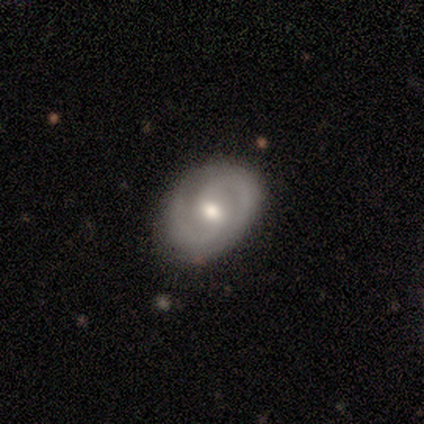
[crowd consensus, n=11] Smooth or featured? 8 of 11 (73%) said featured or disk. Edge-on disk? 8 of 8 (100%) said no. Bar? 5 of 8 (62%) said weak. Spiral arms? 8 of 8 (100%) said yes. Spiral winding? 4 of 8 (50%) said tight. Spiral arm count? 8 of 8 (100%) said 2. Bulge size? 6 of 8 (75%) said moderate. Merging? 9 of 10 (90%) said none.